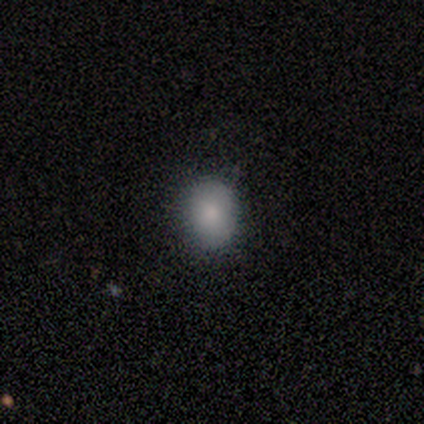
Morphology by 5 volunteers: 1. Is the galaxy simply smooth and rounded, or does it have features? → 80% smooth, 20% star or artifact, 0% featured or disk.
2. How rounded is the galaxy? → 75% in between, 25% round, 0% cigar-shaped.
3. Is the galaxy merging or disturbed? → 100% minor disturbance, 0% none, 0% major disturbance, 0% merger.